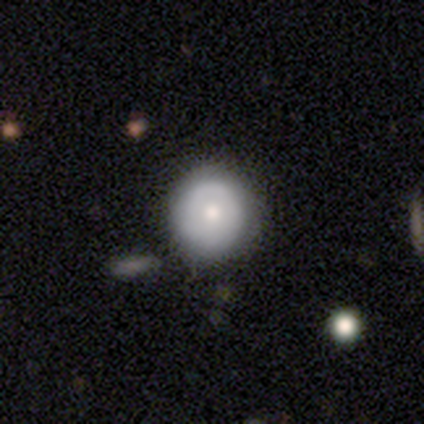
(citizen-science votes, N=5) Smooth or featured: smooth — 60% (featured or disk — 20%)
How rounded: round — 100%
Merging: none — 100%